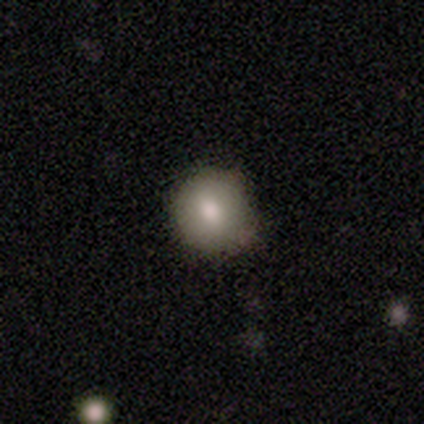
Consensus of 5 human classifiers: smooth_or_featured: smooth (p=1.00)
how_rounded: round (p=1.00)
merging: none (p=0.80) [alt: minor disturbance p=0.20]